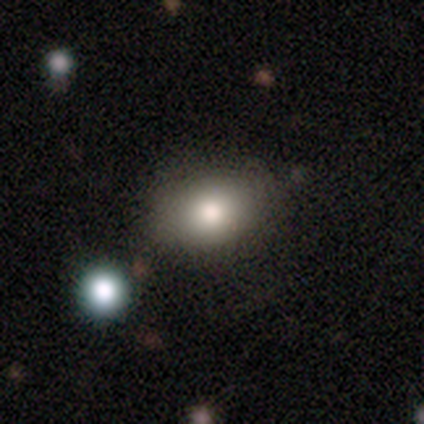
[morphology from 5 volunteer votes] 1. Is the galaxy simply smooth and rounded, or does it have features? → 80% smooth, 20% featured or disk, 0% star or artifact.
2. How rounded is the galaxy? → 75% in between, 25% round, 0% cigar-shaped.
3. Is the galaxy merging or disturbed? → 80% none, 20% minor disturbance, 0% major disturbance, 0% merger.